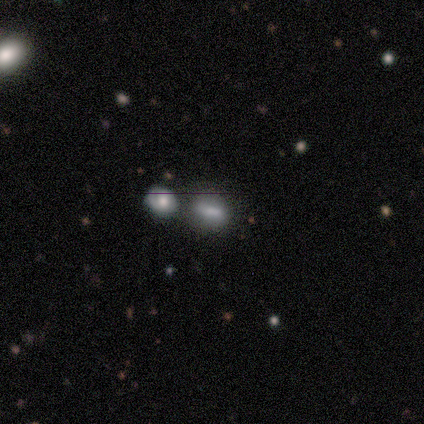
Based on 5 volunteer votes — smooth-or-featured: smooth: 80% | star or artifact: 20% | featured or disk: 0%
  how-rounded: in between: 100% | round: 0% | cigar-shaped: 0%
  merging: none: 50% | minor disturbance: 25% | merger: 25% | major disturbance: 0%